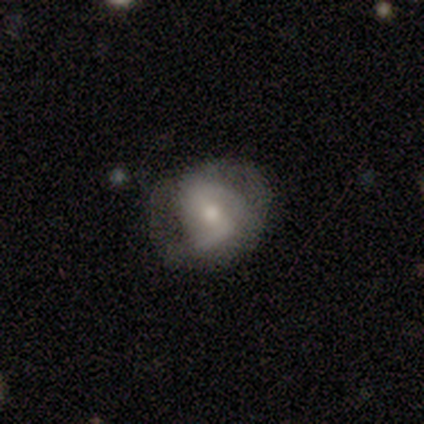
A featured or disk galaxy (80%) with a weak bar (50%), 2 (50%) medium (75%) spiral arms (100%) and a moderate central bulge (50%, tied with small). Merging: none (60%).